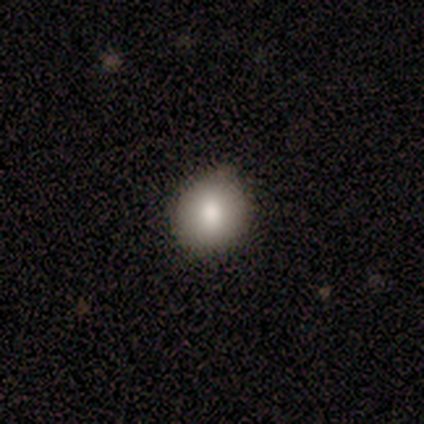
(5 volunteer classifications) smooth_or_featured: smooth (p=0.80) [alt: star or artifact p=0.20]
how_rounded: round (p=1.00)
merging: none (p=1.00)